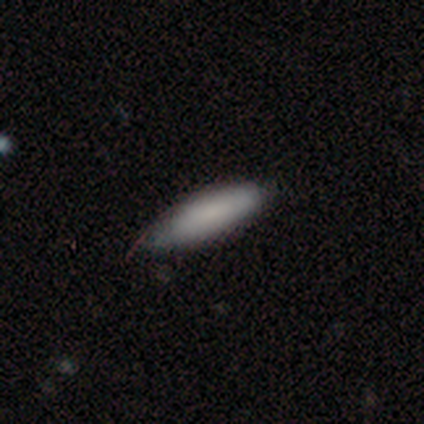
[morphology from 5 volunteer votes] Smooth or featured? smooth (100%)
How rounded? cigar-shaped (100%)
Merging? minor disturbance (60%)